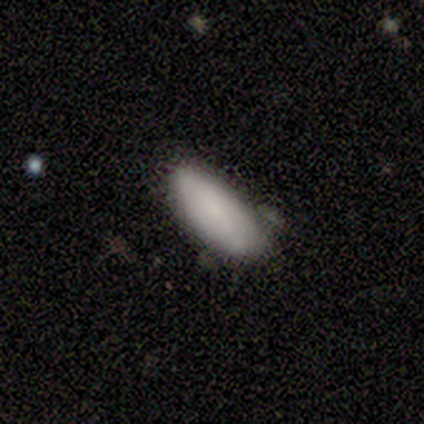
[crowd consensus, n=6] This appears to be a smooth galaxy with no disk features (83%) that is in between round and cigar-shaped (100%). Merging: none (100%).